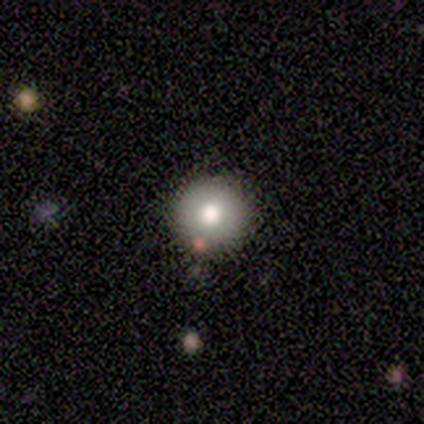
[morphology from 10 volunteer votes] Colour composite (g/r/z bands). It shows a smooth galaxy with no disk features (80%) that is round (100%). Merging: none (80%).